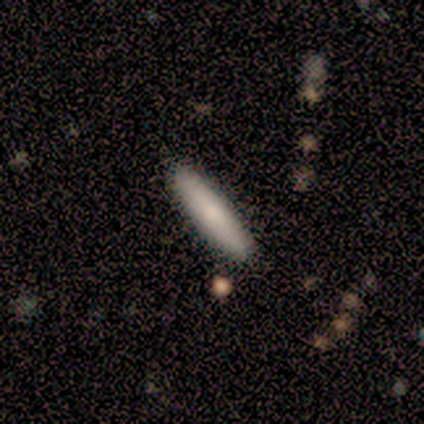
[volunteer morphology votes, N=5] This appears to be a smooth galaxy with no disk features (100%) that is cigar-shaped (80%). Merging: none (100%).